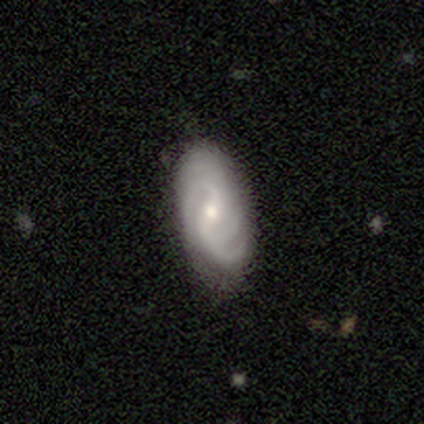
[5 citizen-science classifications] Smooth or featured?
  - featured or disk: 100% *
  - smooth: 0%
  - star or artifact: 0%
Edge-on disk?
  - no: 100% *
  - yes: 0%
Bar?
  - weak: 80% *
  - no: 20%
  - strong: 0%
Spiral arms?
  - yes: 100% *
  - no: 0%
Spiral winding?
  - tight: 60% *
  - medium: 40%
  - loose: 0%
Spiral arm count?
  - 3: 40% * (tied)
  - 4: 40% * (tied)
  - 2: 20%
  - 1: 0%
  - more than 4: 0%
  - can't tell: 0%
Bulge size?
  - moderate: 60% *
  - large: 20%
  - small: 20%
  - dominant: 0%
  - none: 0%
Merging?
  - none: 100% *
  - minor disturbance: 0%
  - major disturbance: 0%
  - merger: 0%